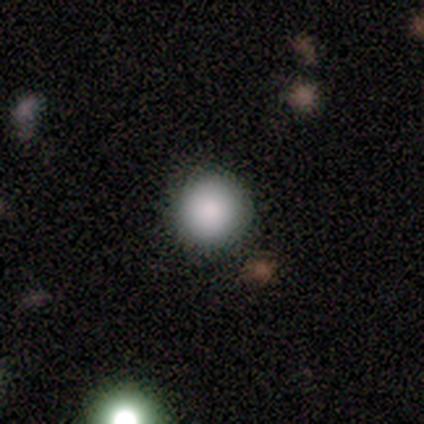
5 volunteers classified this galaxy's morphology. Overall: smooth (80%). How rounded: round (100%). Merging: none (80%).